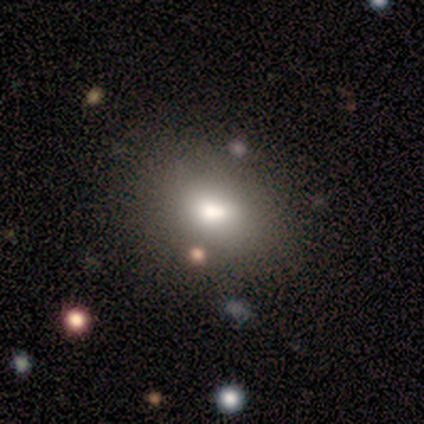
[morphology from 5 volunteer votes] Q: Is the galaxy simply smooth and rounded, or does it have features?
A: smooth — 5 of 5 (100%).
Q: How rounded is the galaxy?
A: in between — 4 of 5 (80%).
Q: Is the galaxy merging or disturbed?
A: none — 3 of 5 (60%).